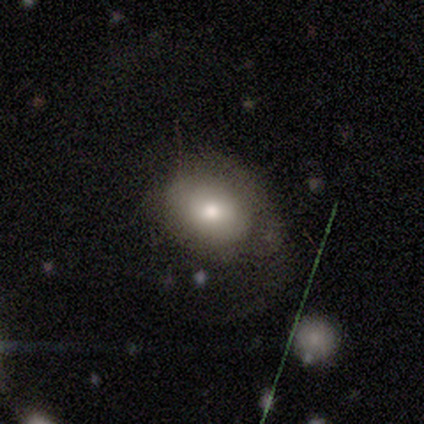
Morphology: type=smooth (50%); roundness=round (50%, tied with in between); merging=major disturbance (67%).